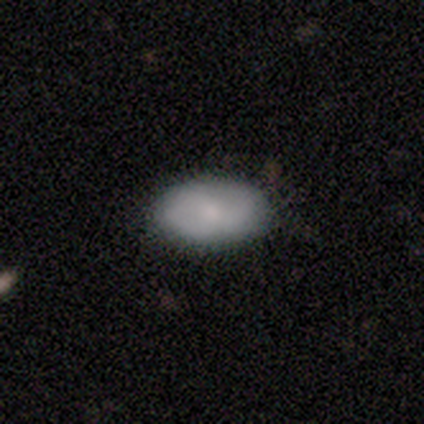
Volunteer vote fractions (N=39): A smooth galaxy with no disk features (64%) that is in between round and cigar-shaped (96%). Merging: none (56%).